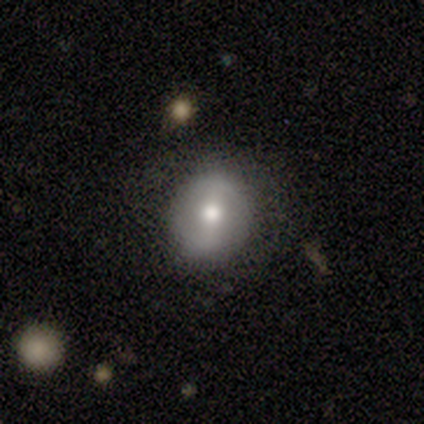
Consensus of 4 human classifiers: smooth_or_featured: featured or disk (p=0.50) [alt: smooth p=0.25]
disk_edge_on: no (p=1.00)
bar: weak (p=1.00)
has_spiral_arms: no (p=1.00)
bulge_size: moderate (p=1.00)
merging: none (p=1.00)